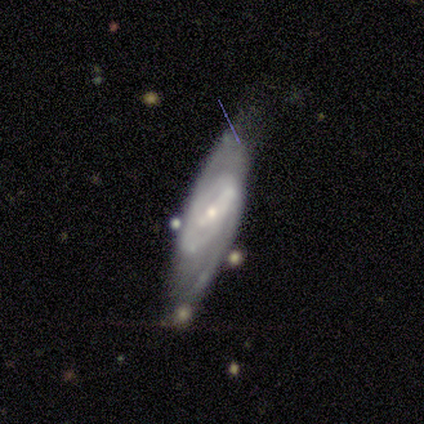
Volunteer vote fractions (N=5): smooth_or_featured: featured or disk (p=0.80) [alt: smooth p=0.20]
disk_edge_on: no (p=1.00)
bar: strong (p=0.50) [tied with: weak p=0.50]
has_spiral_arms: yes (p=1.00)
spiral_winding: medium (p=0.75) [alt: tight p=0.25]
spiral_arm_count: 2 (p=0.75) [alt: can't tell p=0.25]
bulge_size: small (p=0.75) [alt: moderate p=0.25]
merging: none (p=0.60) [alt: minor disturbance p=0.20]